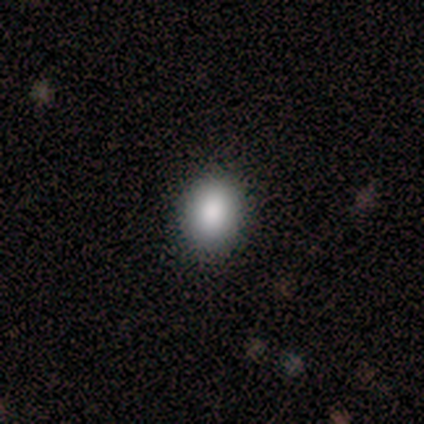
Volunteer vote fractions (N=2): smooth_or_featured: smooth (p=1.00)
how_rounded: round (p=0.50) [tied with: in between p=0.50]
merging: none (p=1.00)